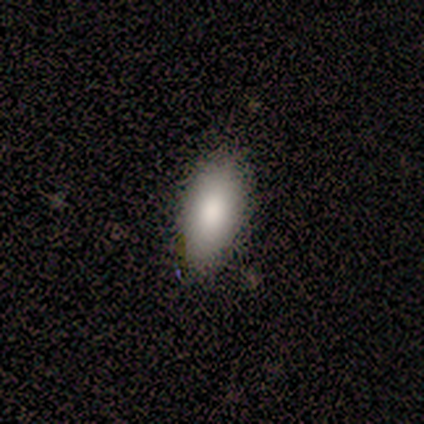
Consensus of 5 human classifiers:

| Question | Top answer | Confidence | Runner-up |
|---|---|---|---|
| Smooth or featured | smooth | 100% | — |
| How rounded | in between | 100% | — |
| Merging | minor disturbance | 60% | none (40%) |